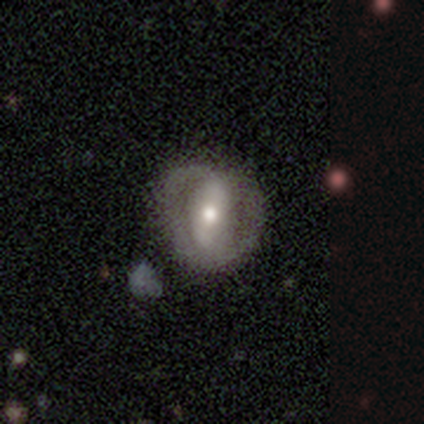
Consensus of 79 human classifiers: smooth_or_featured: featured or disk (p=0.62) [alt: smooth p=0.30]
disk_edge_on: no (p=0.96) [alt: yes p=0.04]
bar: strong (p=0.49) [alt: no p=0.34]
has_spiral_arms: no (p=0.64) [alt: yes p=0.36]
bulge_size: moderate (p=0.57) [alt: small p=0.23]
merging: none (p=0.64) [alt: minor disturbance p=0.22]